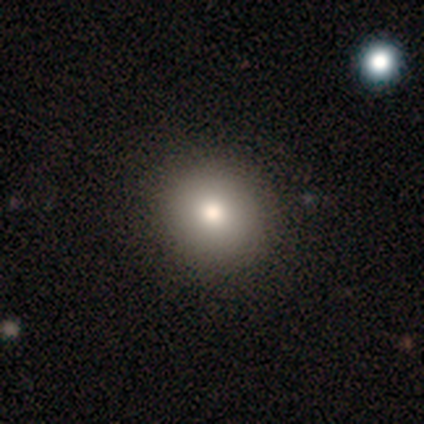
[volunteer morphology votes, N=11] A smooth galaxy with no disk features (82%) that is round (89%).

Vote fractions:
- Smooth or featured? smooth: 82% / featured or disk: 18% / star or artifact: 0%
- How rounded? round: 89% / in between: 11% / cigar-shaped: 0%
- Merging? none: 91% / minor disturbance: 9% / major disturbance: 0% / merger: 0%